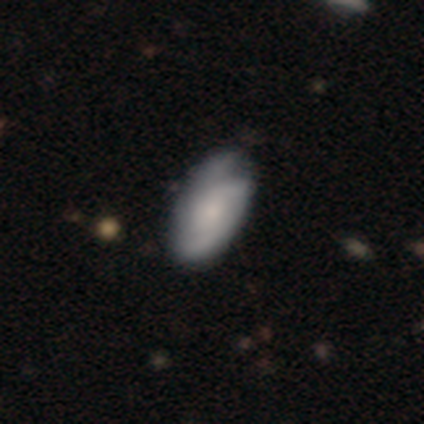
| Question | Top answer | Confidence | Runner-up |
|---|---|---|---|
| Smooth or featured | featured or disk | 52% | smooth (45%) |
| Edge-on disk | no | 100% | — |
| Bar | no | 67% | weak (24%) |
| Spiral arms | yes | 81% | no (19%) |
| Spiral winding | medium | 47% | tight (29%) |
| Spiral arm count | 2 | 29% | tied: 3 (29%), can't tell (29%) |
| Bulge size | small | 48% | moderate (33%) |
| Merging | none | 56% | minor disturbance (13%) |